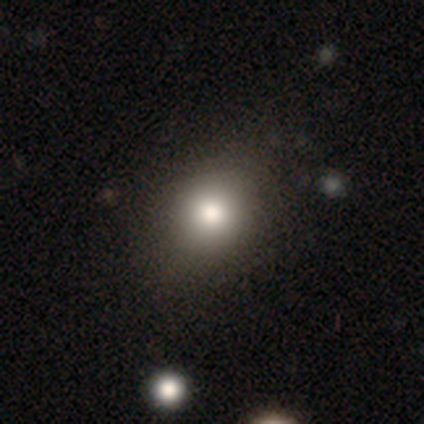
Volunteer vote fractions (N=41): Smooth or featured? smooth (76%)
How rounded? round (52%)
Merging? none (59%)